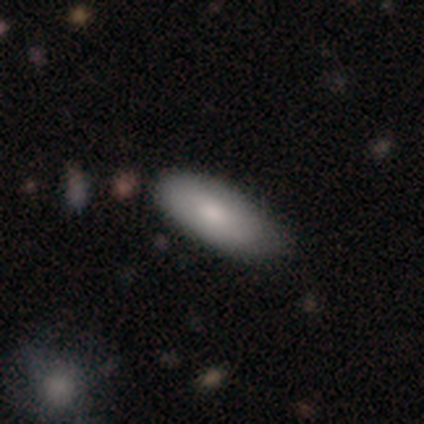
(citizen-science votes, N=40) Smooth or featured?
  - smooth: 88% *
  - featured or disk: 8%
  - star or artifact: 5%
How rounded?
  - in between: 77% *
  - cigar-shaped: 14%
  - round: 9%
Merging?
  - none: 68% *
  - minor disturbance: 32%
  - major disturbance: 0%
  - merger: 0%